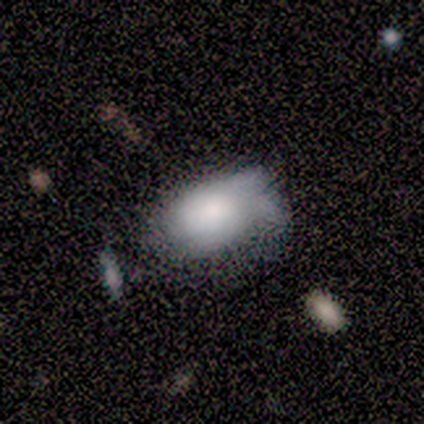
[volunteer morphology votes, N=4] Smooth or featured: smooth — 75% (featured or disk — 25%)
How rounded: in between — 100%
Merging: major disturbance — 50% (none — 25%)